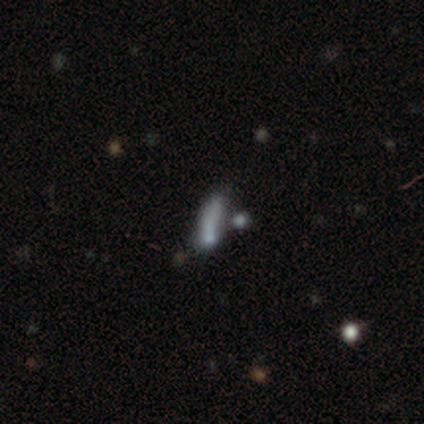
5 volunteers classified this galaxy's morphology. type=featured or disk (60%); edge-on=yes (67%); edge-on bulge=none (100%); merging=none (67%).